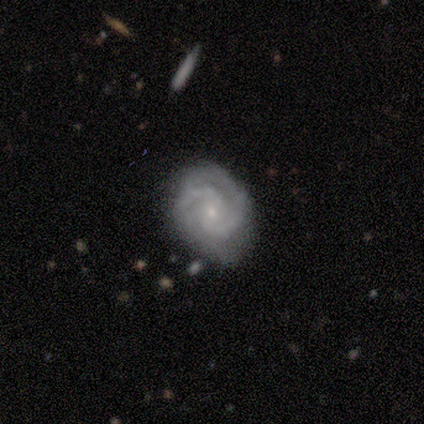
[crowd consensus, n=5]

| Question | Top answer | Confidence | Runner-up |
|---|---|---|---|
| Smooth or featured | featured or disk | 80% | star or artifact (20%) |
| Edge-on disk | no | 75% | yes (25%) |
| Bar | no | 100% | — |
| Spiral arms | yes | 100% | — |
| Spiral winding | tight | 100% | — |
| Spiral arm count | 2 | 67% | can't tell (33%) |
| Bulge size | small | 100% | — |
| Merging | none | 50% | minor disturbance (25%) |